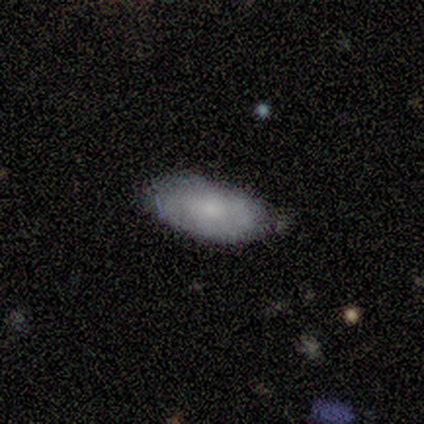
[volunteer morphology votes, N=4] Smooth or featured: smooth — 100%
How rounded: in between — 100%
Merging: none — 50% (minor disturbance — 25%)